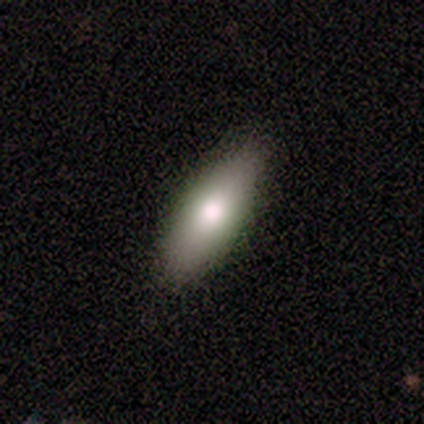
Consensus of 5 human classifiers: Smooth or featured: smooth — 80% (featured or disk — 20%)
How rounded: in between — 50% (tied with cigar-shaped — 50%)
Merging: none — 80% (minor disturbance — 20%)